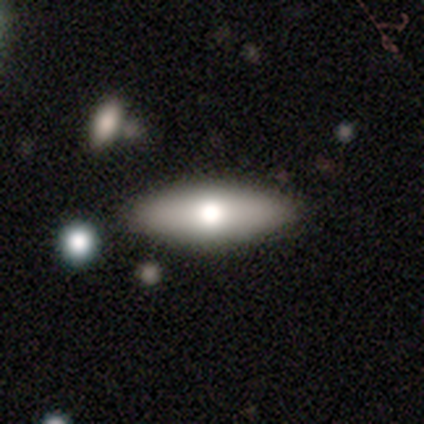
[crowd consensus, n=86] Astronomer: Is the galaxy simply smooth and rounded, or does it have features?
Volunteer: smooth — 72%.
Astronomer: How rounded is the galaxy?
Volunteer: in between — 52% (runner-up: cigar-shaped, 48%).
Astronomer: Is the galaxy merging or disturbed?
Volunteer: none — 93%.